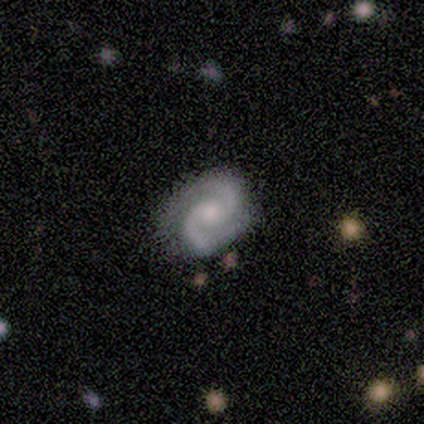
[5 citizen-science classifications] Volunteers were most divided on "spiral winding" (2-way tie): tight: 40%, medium: 40%, loose: 20%. More confident: smooth or featured — featured or disk (100%); edge-on disk — no (100%); spiral arms — yes (100%); spiral arm count — 2 (100%); merging — none (100%); bar — no (60%); bulge size — small (60%).